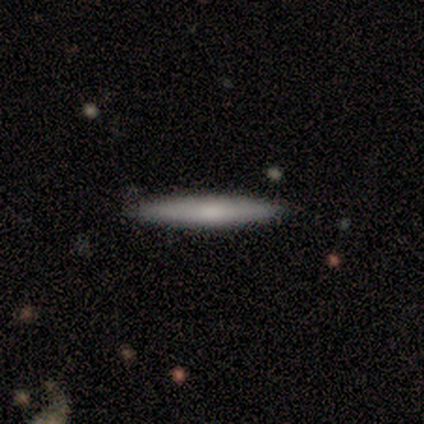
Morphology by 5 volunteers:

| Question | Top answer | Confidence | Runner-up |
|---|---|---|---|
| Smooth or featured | smooth | 80% | featured or disk (20%) |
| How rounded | cigar-shaped | 100% | — |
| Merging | none | 100% | — |